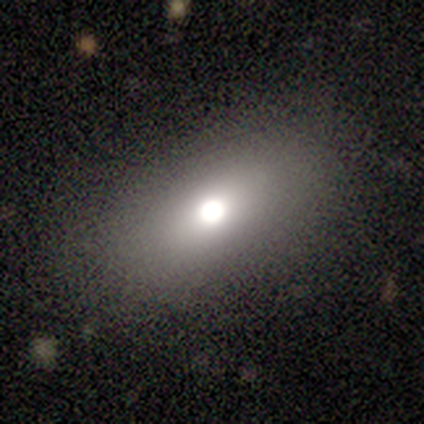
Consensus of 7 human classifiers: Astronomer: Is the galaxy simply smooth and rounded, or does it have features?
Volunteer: smooth — 57% (runner-up: star or artifact, 43%).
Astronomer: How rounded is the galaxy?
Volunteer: in between — 75%.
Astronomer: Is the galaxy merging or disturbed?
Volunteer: none — 100%.